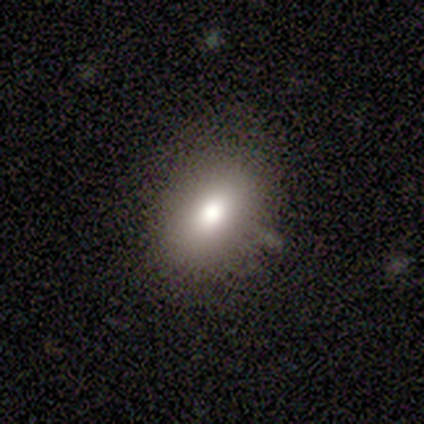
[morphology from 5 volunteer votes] This appears to be a smooth galaxy with no disk features (100%) that is in between round and cigar-shaped (100%). Merging: none (100%).